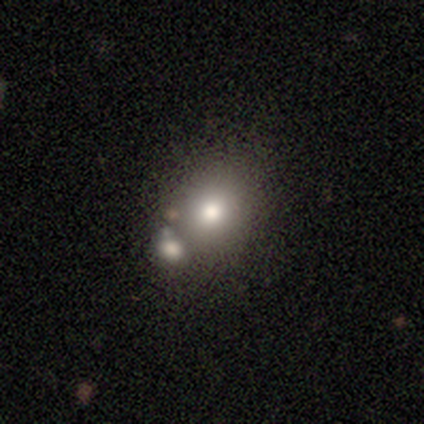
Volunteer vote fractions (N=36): Q: Smooth or featured?
A: smooth (81%); runner-up: star or artifact (14%)
Q: How rounded?
A: round (72%); runner-up: in between (28%)
Q: Merging?
A: none (52%); runner-up: merger (35%)